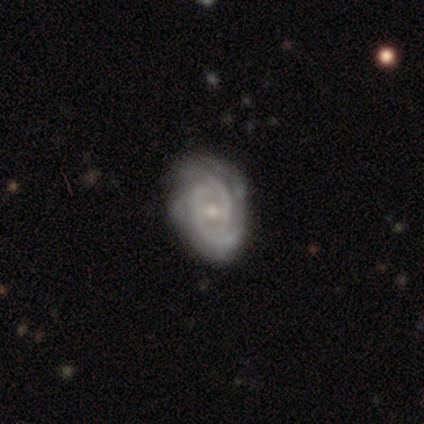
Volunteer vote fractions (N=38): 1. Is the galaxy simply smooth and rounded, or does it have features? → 89% featured or disk, 8% smooth, 3% star or artifact.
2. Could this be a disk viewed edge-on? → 100% no, 0% yes.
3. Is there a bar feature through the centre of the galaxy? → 62% weak, 29% no, 9% strong.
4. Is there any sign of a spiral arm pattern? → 97% yes, 3% no.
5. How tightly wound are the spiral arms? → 67% tight, 24% medium, 9% loose.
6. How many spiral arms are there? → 36% 2, 24% can't tell, 18% 3, 15% 4, 6% 1, 0% more than 4.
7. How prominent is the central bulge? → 47% moderate, 44% small, 6% none, 3% large, 0% dominant.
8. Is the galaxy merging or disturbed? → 84% none, 8% minor disturbance, 8% major disturbance, 0% merger.